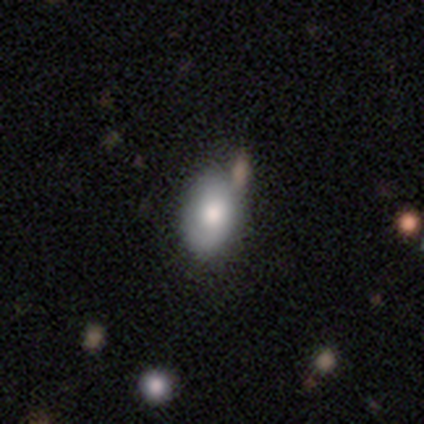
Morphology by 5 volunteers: Smooth or featured: smooth — 100%
How rounded: in between — 100%
Merging: none — 80% (minor disturbance — 20%)